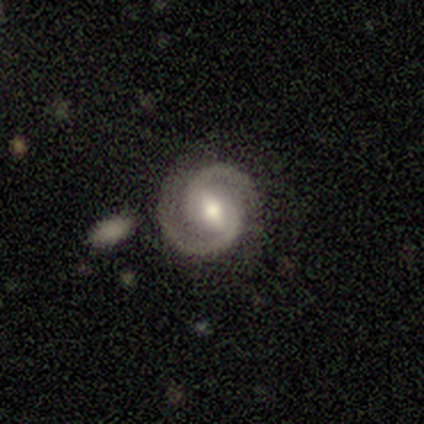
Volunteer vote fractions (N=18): This is clearly a featured or disk galaxy (94%). It is clearly not viewed edge-on (94%). Bar: possibly strong (50%, tied with weak). Spiral arm pattern: clearly yes (100%). Spiral arm count: clearly 2 (94%). Spiral winding: possibly medium (56%). Central bulge: likely moderate (75%). Merging: likely none (72%).